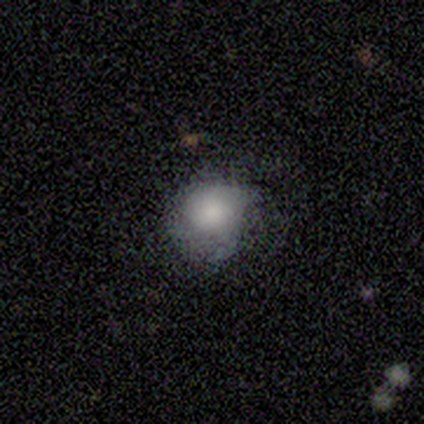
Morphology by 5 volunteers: type=smooth (60%); roundness=round (100%); merging=none (60%).